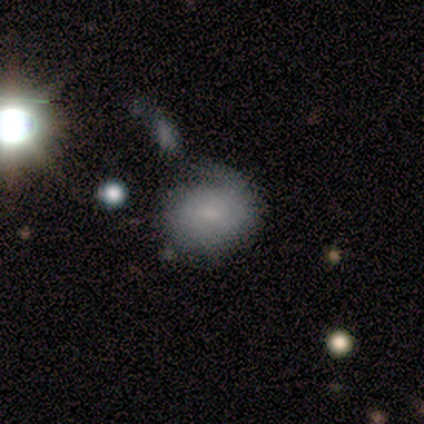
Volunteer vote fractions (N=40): smooth 65%, featured or disk 25%, star or artifact 10%. Down the decision tree: how rounded — round (73%); merging — none (42%).